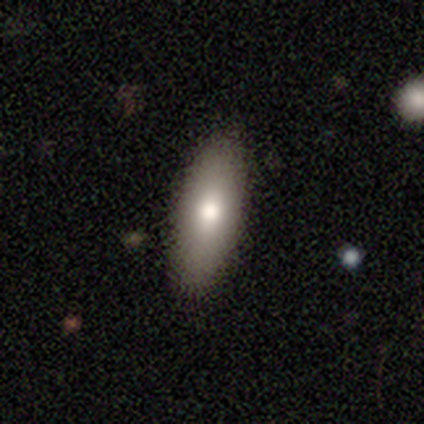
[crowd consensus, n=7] A smooth galaxy with no disk features (71%) that is in between round and cigar-shaped (80%).

Vote fractions:
- Smooth or featured? smooth: 71% / featured or disk: 29% / star or artifact: 0%
- How rounded? in between: 80% / cigar-shaped: 20% / round: 0%
- Merging? none: 86% / merger: 14% / minor disturbance: 0% / major disturbance: 0%